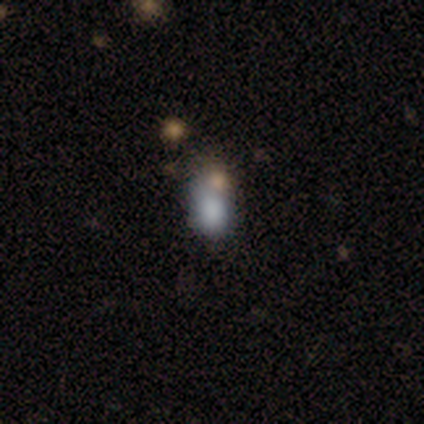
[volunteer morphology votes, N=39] smooth-or-featured: smooth: 67% | star or artifact: 18% | featured or disk: 15%
  how-rounded: in between: 85% | round: 15% | cigar-shaped: 0%
  merging: none: 41% | merger: 31% | minor disturbance: 28% | major disturbance: 0%